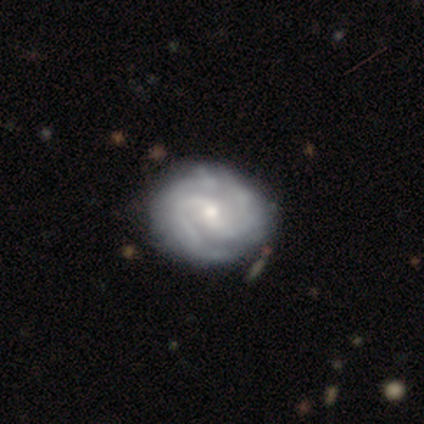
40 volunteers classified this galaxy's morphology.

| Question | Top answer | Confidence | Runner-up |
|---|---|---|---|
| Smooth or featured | featured or disk | 88% | smooth (8%) |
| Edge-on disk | no | 100% | — |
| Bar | no | 54% | weak (37%) |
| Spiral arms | yes | 100% | — |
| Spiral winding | medium | 63% | tight (37%) |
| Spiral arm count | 2 | 69% | can't tell (17%) |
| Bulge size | small | 51% | moderate (37%) |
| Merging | none | 42% | minor disturbance (13%) |